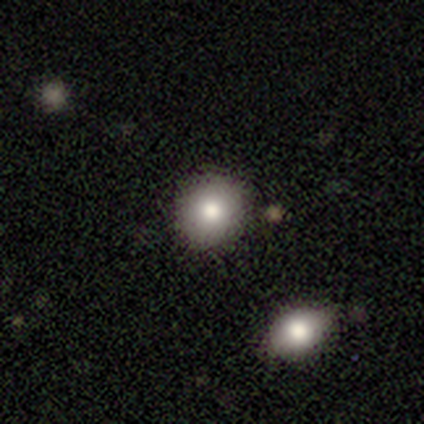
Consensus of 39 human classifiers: Q: Smooth or featured?
A: smooth (77%); runner-up: featured or disk (13%)
Q: How rounded?
A: round (83%); runner-up: in between (17%)
Q: Merging?
A: none (63%); runner-up: minor disturbance (6%)